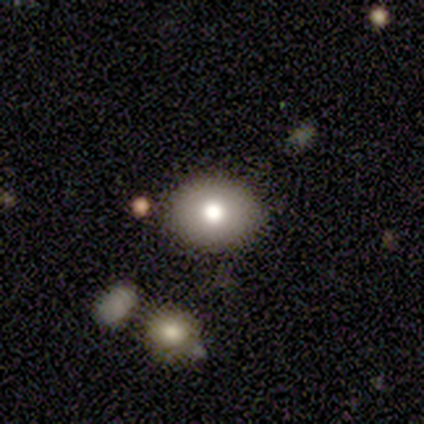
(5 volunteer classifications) Smooth or featured: smooth — 80% (featured or disk — 20%)
How rounded: in between — 75% (round — 25%)
Merging: none — 60% (major disturbance — 40%)